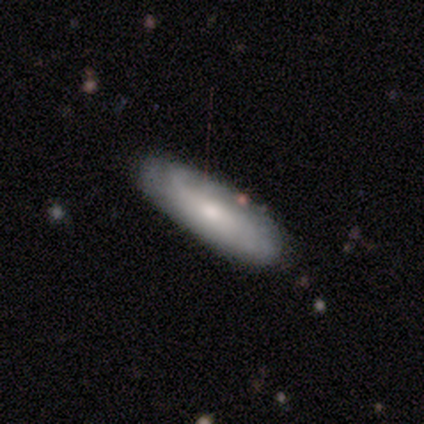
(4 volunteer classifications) smooth_or_featured: smooth (p=1.00)
how_rounded: in between (p=0.75) [alt: cigar-shaped p=0.25]
merging: none (p=0.75) [alt: minor disturbance p=0.25]